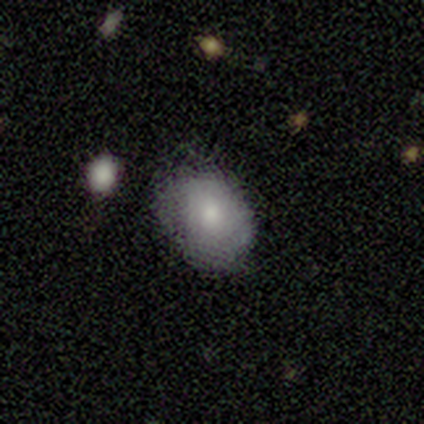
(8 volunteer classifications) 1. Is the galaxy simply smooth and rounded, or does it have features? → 62% smooth, 38% featured or disk, 0% star or artifact.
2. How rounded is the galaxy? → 100% in between, 0% round, 0% cigar-shaped.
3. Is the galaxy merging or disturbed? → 75% none, 25% minor disturbance, 0% major disturbance, 0% merger.